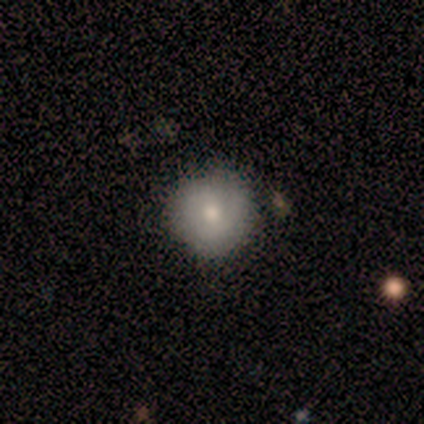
A smooth galaxy with no disk features (80%) that is round (100%).

Vote fractions:
- Smooth or featured? smooth: 80% / featured or disk: 20% / star or artifact: 0%
- How rounded? round: 100% / in between: 0% / cigar-shaped: 0%
- Merging? none: 80% / minor disturbance: 20% / major disturbance: 0% / merger: 0%